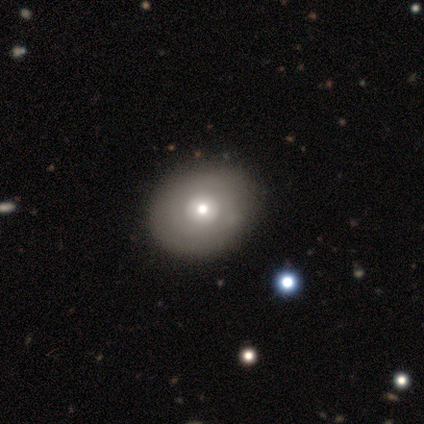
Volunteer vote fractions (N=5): smooth-or-featured: smooth: 100% | featured or disk: 0% | star or artifact: 0%
  how-rounded: in between: 60% | round: 40% | cigar-shaped: 0%
  merging: none: 80% | major disturbance: 20% | minor disturbance: 0% | merger: 0%